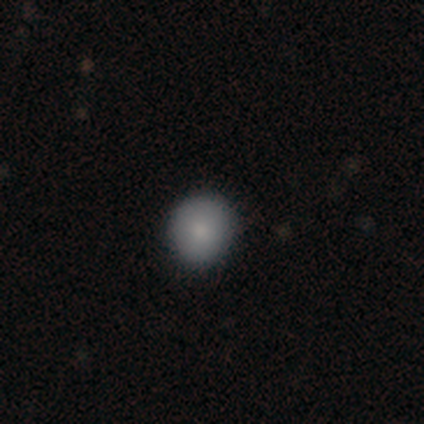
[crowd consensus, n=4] Smooth or featured?
  - smooth: 75% *
  - star or artifact: 25%
  - featured or disk: 0%
How rounded?
  - round: 100% *
  - in between: 0%
  - cigar-shaped: 0%
Merging?
  - none: 100% *
  - minor disturbance: 0%
  - major disturbance: 0%
  - merger: 0%